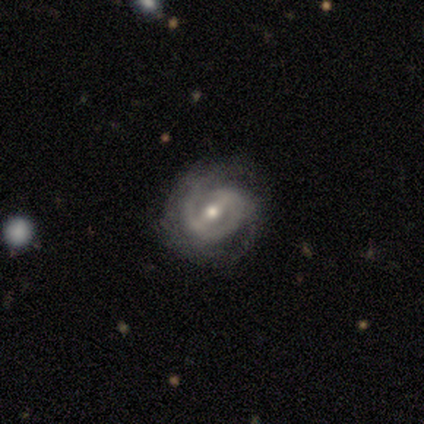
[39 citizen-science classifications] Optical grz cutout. It shows a featured or disk galaxy (90%) with a strong bar (45%), 2 (60%) tight (50%) spiral arms (91%) and a moderate central bulge (61%). Merging: none (81%).